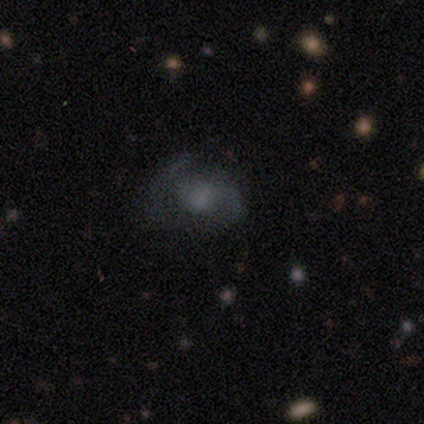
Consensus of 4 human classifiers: Smooth or featured? 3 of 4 (75%) said featured or disk. Edge-on disk? 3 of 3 (100%) said no. Bar? 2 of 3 (67%) said no. Spiral arms? 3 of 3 (100%) said yes. Spiral winding? 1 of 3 (33%, tied with medium and loose) said tight. Spiral arm count? 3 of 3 (100%) said 2. Bulge size? 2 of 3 (67%) said moderate. Merging? 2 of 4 (50%) said major disturbance.